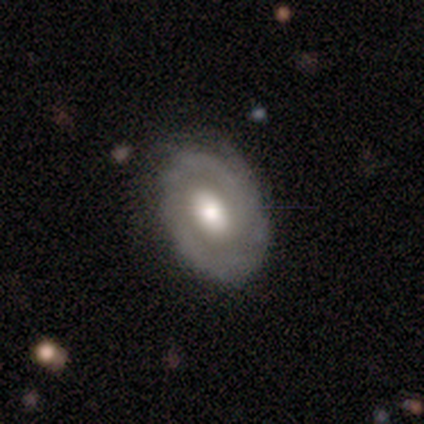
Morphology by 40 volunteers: Q: Smooth or featured?
A: featured or disk (85%); runner-up: smooth (12%)
Q: Edge-on disk?
A: no (97%); runner-up: yes (3%)
Q: Bar?
A: no (79%); runner-up: weak (18%)
Q: Spiral arms?
A: yes (73%); runner-up: no (27%)
Q: Spiral winding?
A: tight (62%); runner-up: loose (21%)
Q: Spiral arm count?
A: 2 (38%); runner-up: can't tell (29%)
Q: Bulge size?
A: moderate (61%); runner-up: large (33%)
Q: Merging?
A: none (77%); runner-up: minor disturbance (18%)